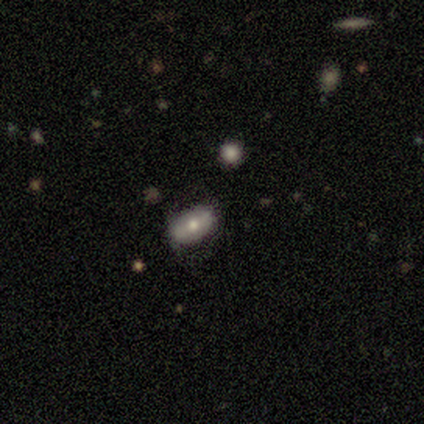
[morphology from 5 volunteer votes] This is likely a featured or disk galaxy (60%). It is clearly not viewed edge-on (100%). Bar: likely no (67%). Spiral arm pattern: likely no (67%). Central bulge: clearly moderate (100%). Merging: possibly none (50%, tied with minor disturbance).